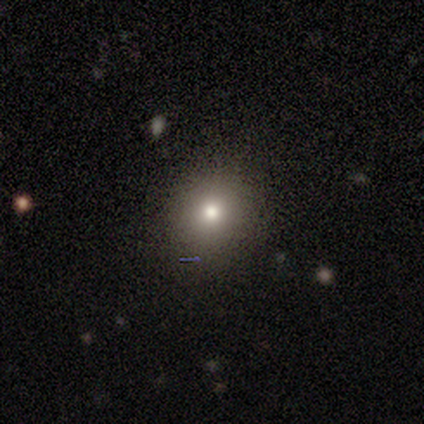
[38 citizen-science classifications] smooth_or_featured: smooth (p=0.74) [alt: star or artifact p=0.18]
how_rounded: round (p=0.86) [alt: in between p=0.14]
merging: none (p=0.90) [alt: minor disturbance p=0.10]